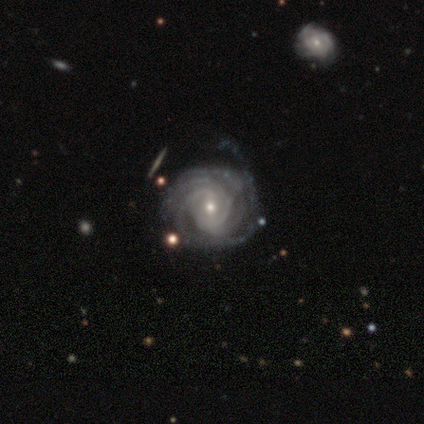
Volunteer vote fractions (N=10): smooth_or_featured: featured or disk (p=1.00)
disk_edge_on: no (p=1.00)
bar: weak (p=0.70) [alt: no p=0.20]
has_spiral_arms: yes (p=0.90) [alt: no p=0.10]
spiral_winding: tight (p=0.67) [alt: medium p=0.33]
spiral_arm_count: 3 (p=0.44) [alt: more than 4 p=0.22]
bulge_size: small (p=0.70) [alt: moderate p=0.30]
merging: none (p=0.60) [alt: minor disturbance p=0.40]